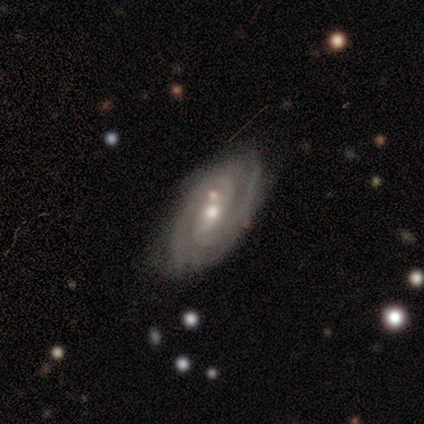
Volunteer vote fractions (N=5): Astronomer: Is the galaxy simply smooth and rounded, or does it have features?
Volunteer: featured or disk — 80%.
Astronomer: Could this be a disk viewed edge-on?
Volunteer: no — 100%.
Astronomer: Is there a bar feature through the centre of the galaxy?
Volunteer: weak — 50%, tied with no at 50%.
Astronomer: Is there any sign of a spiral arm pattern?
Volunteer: yes — 100%.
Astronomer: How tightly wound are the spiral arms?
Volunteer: tight — 100%.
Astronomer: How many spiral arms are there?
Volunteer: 2 — 100%.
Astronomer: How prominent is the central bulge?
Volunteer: small — 75%.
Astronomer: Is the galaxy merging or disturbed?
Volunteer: none — 40% (runner-up: minor disturbance, 20%).